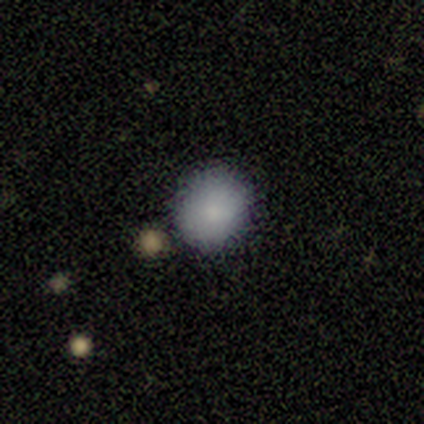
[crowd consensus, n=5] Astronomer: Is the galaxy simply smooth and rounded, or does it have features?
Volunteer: smooth — 60% (runner-up: star or artifact, 40%).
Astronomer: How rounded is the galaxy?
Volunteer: round — 67%.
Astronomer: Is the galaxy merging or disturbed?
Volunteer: none — 67%.